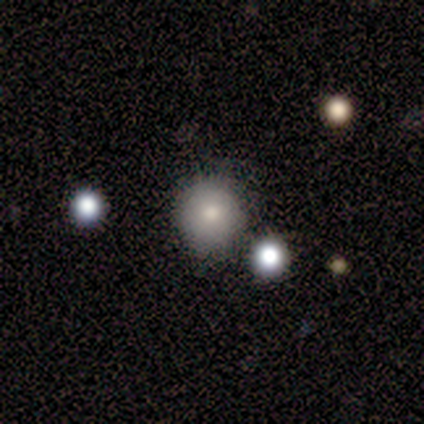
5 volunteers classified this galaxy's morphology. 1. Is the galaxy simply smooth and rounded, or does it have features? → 80% smooth, 20% featured or disk, 0% star or artifact.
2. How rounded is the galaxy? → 75% round, 25% in between, 0% cigar-shaped.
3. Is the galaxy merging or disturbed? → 80% none, 20% merger, 0% minor disturbance, 0% major disturbance.